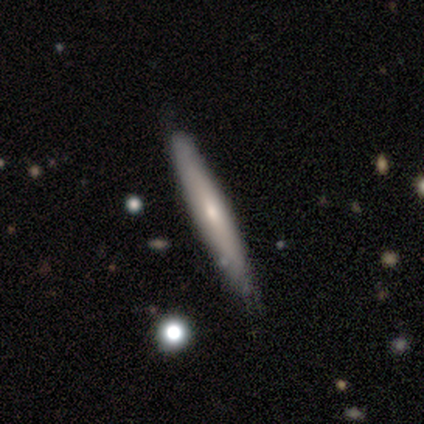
Q: Smooth or featured?
A: smooth (61%); runner-up: featured or disk (34%)
Q: How rounded?
A: cigar-shaped (96%); runner-up: in between (4%)
Q: Merging?
A: none (75%); runner-up: minor disturbance (25%)